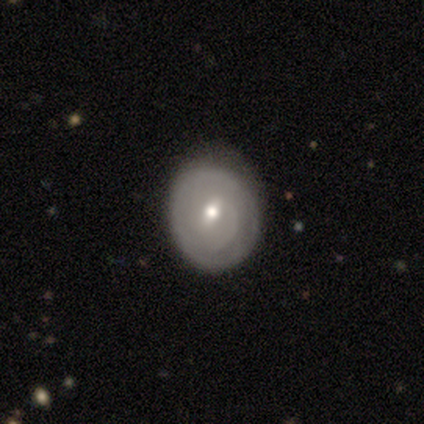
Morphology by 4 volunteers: A smooth galaxy with no disk features (50%, tied with featured or disk) that is round (50%, tied with in between).

Vote fractions:
- Smooth or featured? smooth: 50% (tied) / featured or disk: 50% (tied) / star or artifact: 0%
- How rounded? round: 50% (tied) / in between: 50% (tied) / cigar-shaped: 0%
- Merging? none: 100% / minor disturbance: 0% / major disturbance: 0% / merger: 0%